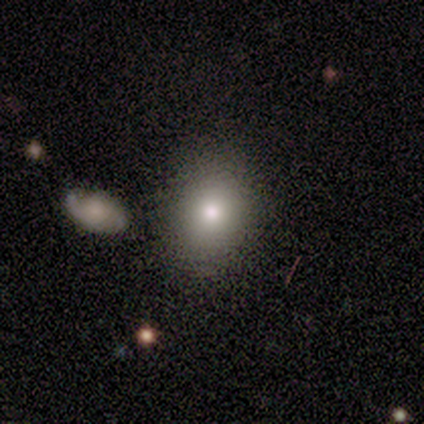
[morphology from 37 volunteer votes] A smooth galaxy with no disk features (86%) that is round (50%, tied with in between).

Vote fractions:
- Smooth or featured? smooth: 86% / featured or disk: 11% / star or artifact: 3%
- How rounded? round: 50% (tied) / in between: 50% (tied) / cigar-shaped: 0%
- Merging? none: 81% / minor disturbance: 14% / major disturbance: 6% / merger: 0%